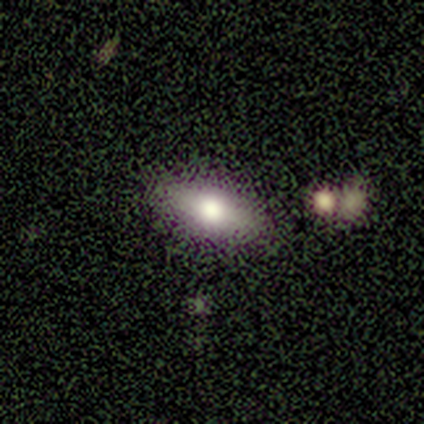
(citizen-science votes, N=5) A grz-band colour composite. It shows a smooth galaxy with no disk features (60%) that is in between round and cigar-shaped (100%). Merging: none (67%).